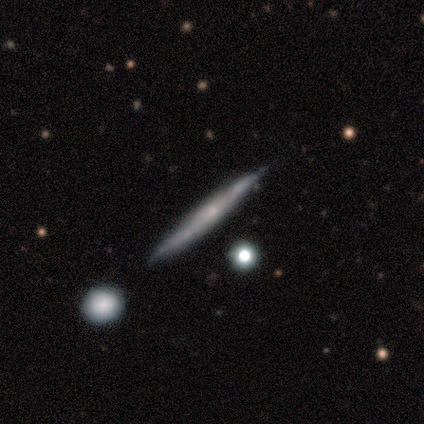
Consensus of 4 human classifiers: Volunteers were most divided on "smooth or featured" (2-way tie): smooth: 50%, featured or disk: 50%, star or artifact: 0%. More confident: how rounded — cigar-shaped (100%); merging — none (75%).